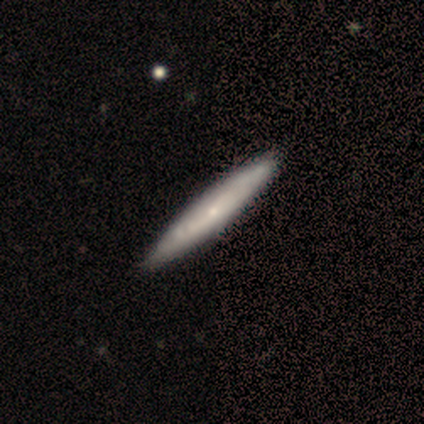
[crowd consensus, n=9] A featured or disk galaxy (67%) viewed edge-on (67%) with a rounded central bulge (75%). Merging: none (67%).